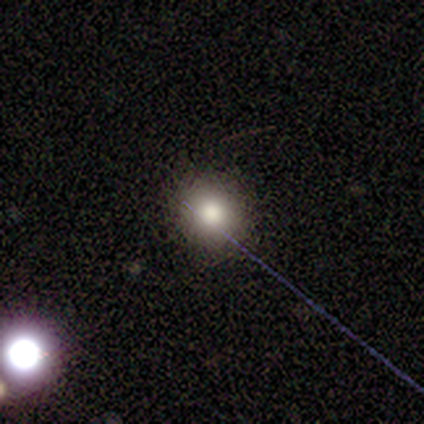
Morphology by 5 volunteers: smooth_or_featured: smooth (p=1.00)
how_rounded: round (p=1.00)
merging: none (p=1.00)